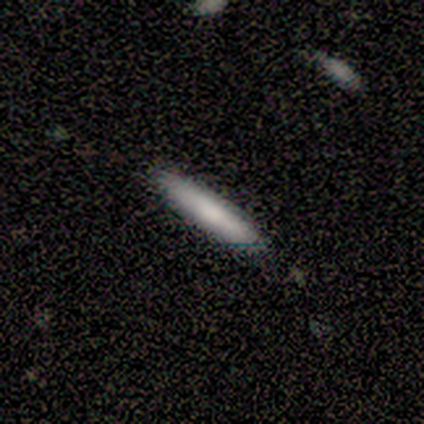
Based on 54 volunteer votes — smooth_or_featured: smooth (p=0.81) [alt: featured or disk p=0.17]
how_rounded: cigar-shaped (p=0.98) [alt: in between p=0.02]
merging: none (p=0.75) [alt: minor disturbance p=0.15]